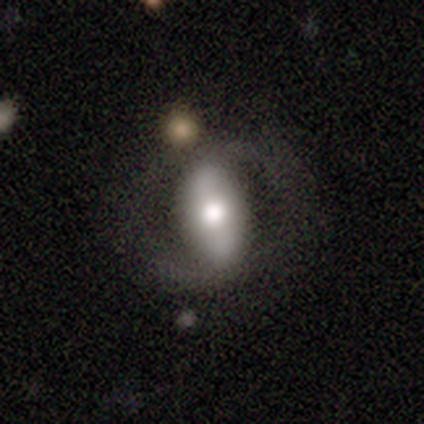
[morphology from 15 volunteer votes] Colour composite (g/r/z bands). It shows a featured or disk galaxy (73%) with no bar (50%), 2 (100%) loose (100%) spiral arms (60%) and a moderate central bulge (70%). Merging: none (67%).